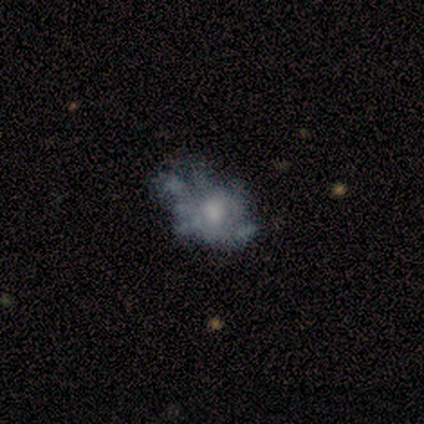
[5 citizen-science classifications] Smooth or featured?
  - featured or disk: 60% *
  - smooth: 20%
  - star or artifact: 20%
Edge-on disk?
  - no: 100% *
  - yes: 0%
Bar?
  - no: 67% *
  - weak: 33%
  - strong: 0%
Spiral arms?
  - no: 100% *
  - yes: 0%
Bulge size?
  - moderate: 67% *
  - small: 33%
  - dominant: 0%
  - large: 0%
  - none: 0%
Merging?
  - none: 50% * (tied)
  - major disturbance: 50% * (tied)
  - minor disturbance: 0%
  - merger: 0%